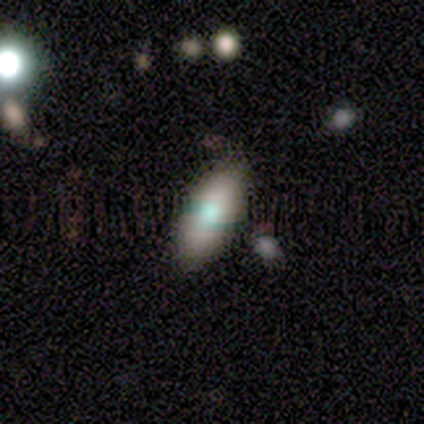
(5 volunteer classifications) Morphology: type=smooth (80%); roundness=in between (75%); merging=none (100%).